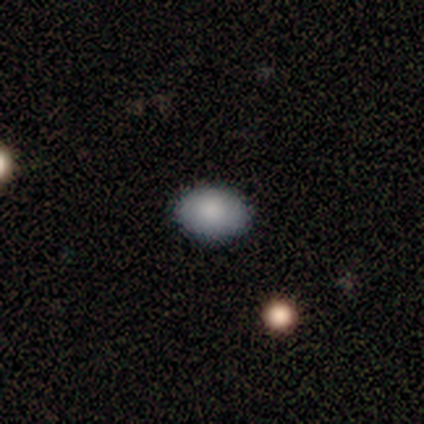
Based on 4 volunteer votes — A smooth galaxy with no disk features (100%) that is in between round and cigar-shaped (75%).

Vote fractions:
- Smooth or featured? smooth: 100% / featured or disk: 0% / star or artifact: 0%
- How rounded? in between: 75% / round: 25% / cigar-shaped: 0%
- Merging? none: 100% / minor disturbance: 0% / major disturbance: 0% / merger: 0%